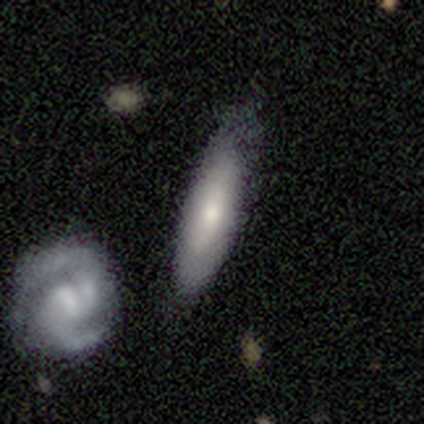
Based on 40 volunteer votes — This appears to be a smooth galaxy with no disk features (50%, tied with featured or disk) that is cigar-shaped (65%). Merging: none (68%).